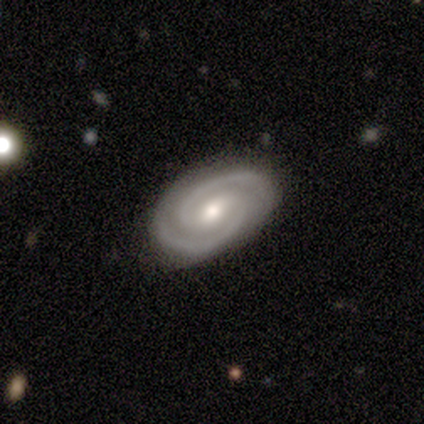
Smooth or featured? 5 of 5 (100%) said featured or disk. Edge-on disk? 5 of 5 (100%) said no. Bar? 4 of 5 (80%) said weak. Spiral arms? 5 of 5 (100%) said yes. Spiral winding? 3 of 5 (60%) said tight. Spiral arm count? 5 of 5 (100%) said 2. Bulge size? 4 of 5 (80%) said moderate. Merging? 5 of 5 (100%) said none.